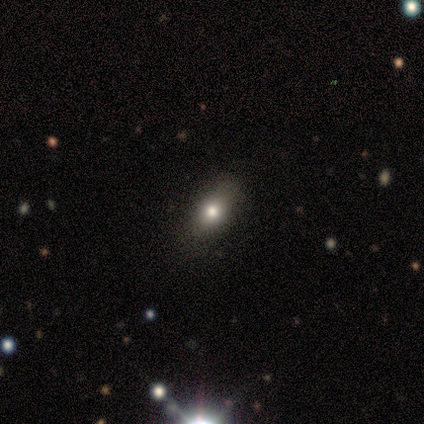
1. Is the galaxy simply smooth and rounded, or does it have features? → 80% smooth, 20% featured or disk, 0% star or artifact.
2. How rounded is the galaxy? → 75% in between, 25% round, 0% cigar-shaped.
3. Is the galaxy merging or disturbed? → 60% none, 40% minor disturbance, 0% major disturbance, 0% merger.